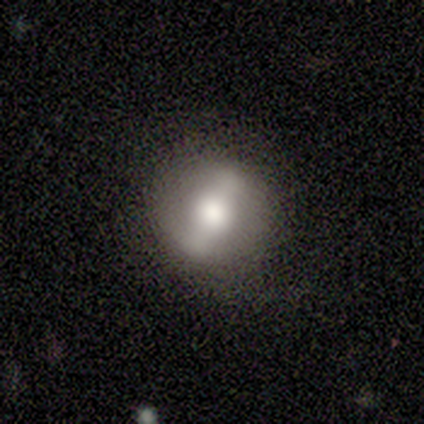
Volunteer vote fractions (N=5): smooth_or_featured: smooth (p=0.40) [tied with: featured or disk p=0.40]
how_rounded: round (p=1.00)
merging: none (p=0.50) [alt: minor disturbance p=0.25]